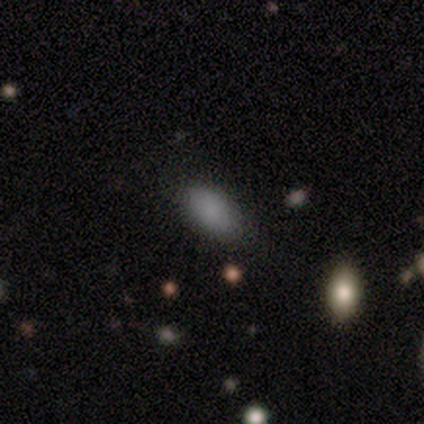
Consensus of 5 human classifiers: Overall: smooth (100%). How rounded: in between (100%). Merging: none (100%).